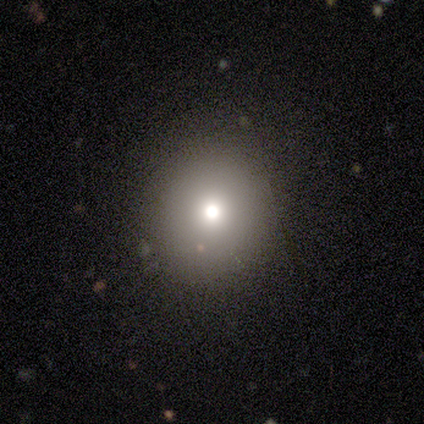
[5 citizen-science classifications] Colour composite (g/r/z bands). It shows a smooth galaxy with no disk features (40%, tied with featured or disk) that is round (100%). Merging: none (75%).